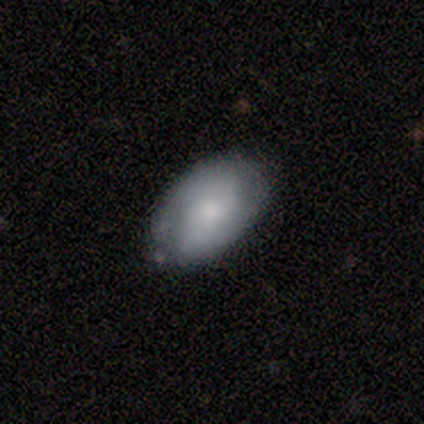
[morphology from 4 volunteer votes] smooth-or-featured: featured or disk: 75% | smooth: 25% | star or artifact: 0%
  disk-edge-on: no: 100% | yes: 0%
    bar: weak: 67% | no: 33% | strong: 0%
    has-spiral-arms: yes: 100% | no: 0%
      spiral-winding: medium: 67% | tight: 33% | loose: 0%
      spiral-arm-count: can't tell: 67% | 2: 33% | 1: 0% | 3: 0% | 4: 0% | more than 4: 0%
    bulge-size: small: 67% | moderate: 33% | dominant: 0% | large: 0% | none: 0%
  merging: none: 50% (tied) | minor disturbance: 50% (tied) | major disturbance: 0% | merger: 0%